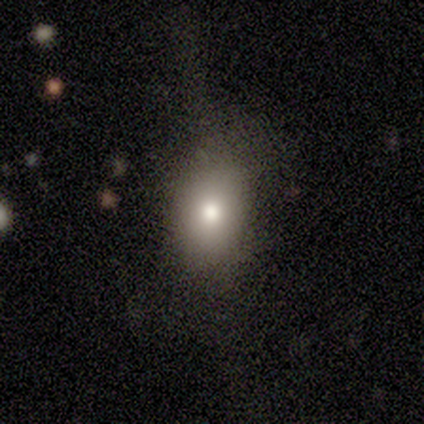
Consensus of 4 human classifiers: Morphology: type=smooth (75%); roundness=in between (100%); merging=none (50%).